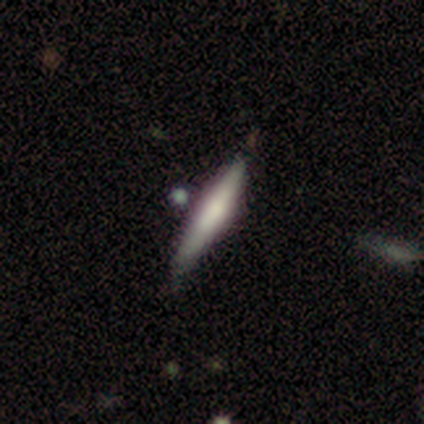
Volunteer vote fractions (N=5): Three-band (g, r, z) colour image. It shows a smooth galaxy with no disk features (80%) that is cigar-shaped (100%). Merging: none (100%).